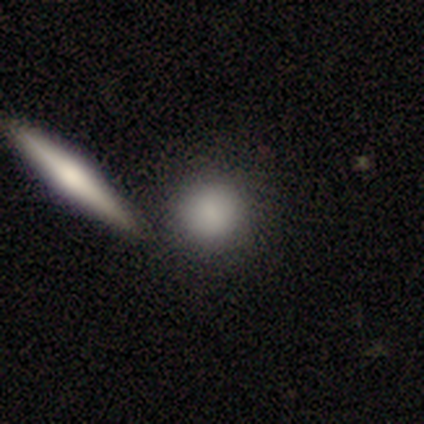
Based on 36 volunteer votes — This appears to be a smooth galaxy with no disk features (83%) that is round (80%). Merging: none (67%).